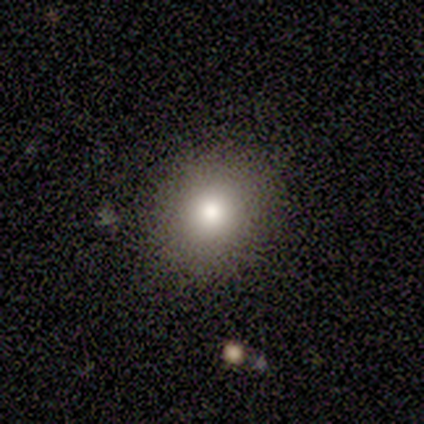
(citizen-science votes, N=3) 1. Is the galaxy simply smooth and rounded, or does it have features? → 67% smooth, 33% featured or disk, 0% star or artifact.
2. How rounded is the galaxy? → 50% round (tied), 50% in between (tied), 0% cigar-shaped.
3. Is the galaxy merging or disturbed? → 100% none, 0% minor disturbance, 0% major disturbance, 0% merger.